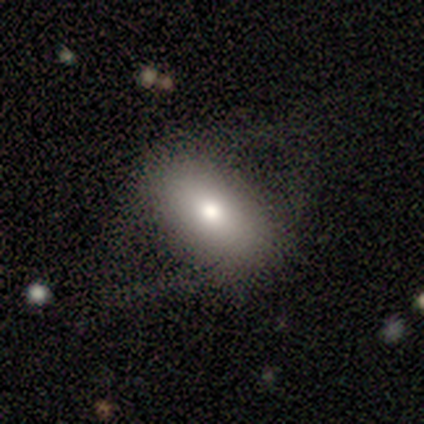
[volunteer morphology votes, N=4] smooth 75%, featured or disk 25%, star or artifact 0%. Down the decision tree: how rounded — in between (67%); merging — none (75%).